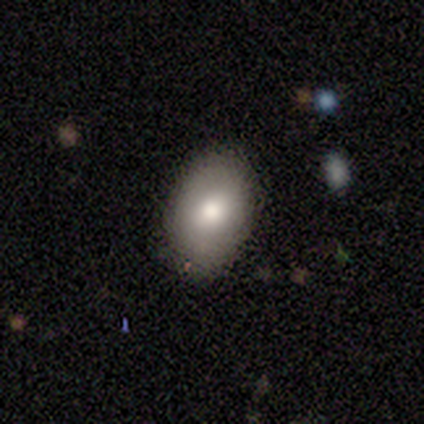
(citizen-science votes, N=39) Overall: smooth (85%). How rounded: in between (91%). Merging: none (81%).